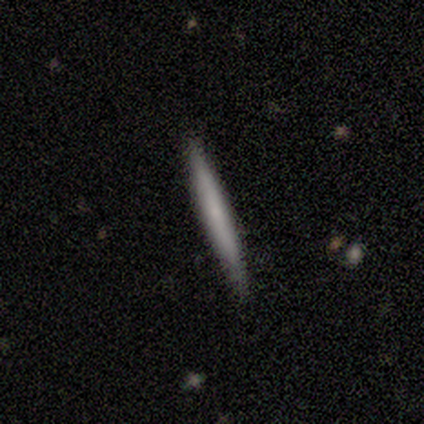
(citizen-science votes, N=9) This is clearly a smooth galaxy (89%). How rounded: clearly cigar-shaped (100%). Merging: clearly none (100%).